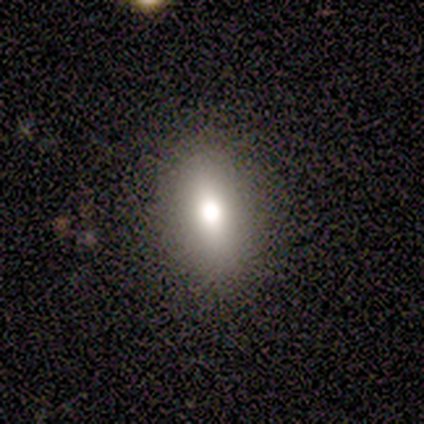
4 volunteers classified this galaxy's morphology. smooth-or-featured: smooth: 50% | featured or disk: 25% | star or artifact: 25%
  how-rounded: round: 50% (tied) | in between: 50% (tied) | cigar-shaped: 0%
  merging: none: 100% | minor disturbance: 0% | major disturbance: 0% | merger: 0%